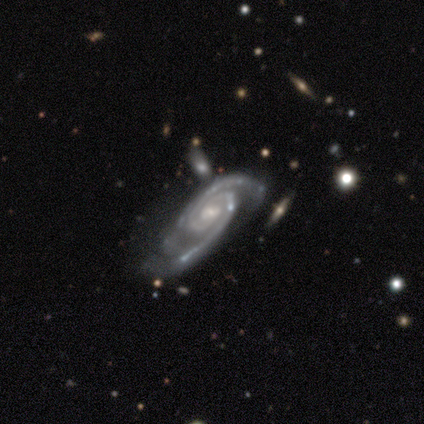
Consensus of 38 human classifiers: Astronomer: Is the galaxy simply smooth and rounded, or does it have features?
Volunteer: featured or disk — 92%.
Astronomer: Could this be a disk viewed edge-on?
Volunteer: no — 91%.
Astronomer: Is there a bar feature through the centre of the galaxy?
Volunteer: weak — 41%, tied with no at 41%.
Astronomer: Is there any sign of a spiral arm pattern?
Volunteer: yes — 100%.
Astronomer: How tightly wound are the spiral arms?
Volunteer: tight — 69%.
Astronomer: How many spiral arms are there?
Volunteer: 2 — 91%.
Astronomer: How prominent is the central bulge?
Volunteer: small — 69%.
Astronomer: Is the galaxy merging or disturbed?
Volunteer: none — 49%.